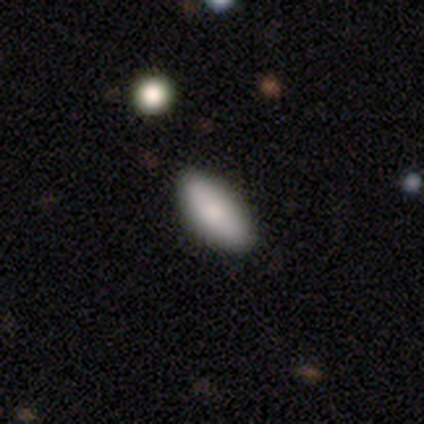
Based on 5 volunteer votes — Smooth or featured: smooth — 80% (star or artifact — 20%)
How rounded: in between — 75% (cigar-shaped — 25%)
Merging: none — 100%